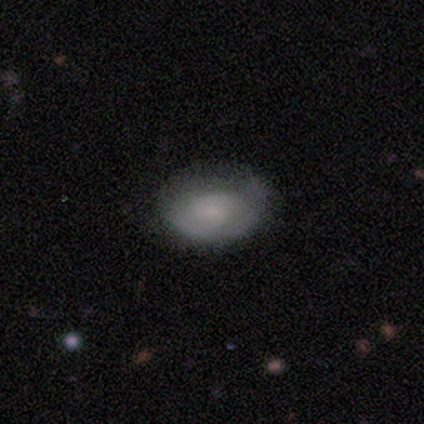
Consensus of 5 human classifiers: A smooth galaxy with no disk features (60%) that is in between round and cigar-shaped (100%). Merging: none (60%).